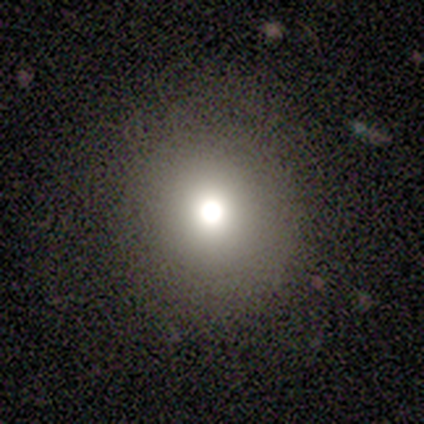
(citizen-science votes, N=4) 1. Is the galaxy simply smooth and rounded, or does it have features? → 50% smooth (tied), 50% featured or disk (tied), 0% star or artifact.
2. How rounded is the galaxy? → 100% round, 0% in between, 0% cigar-shaped.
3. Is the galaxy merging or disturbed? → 75% none, 25% major disturbance, 0% minor disturbance, 0% merger.